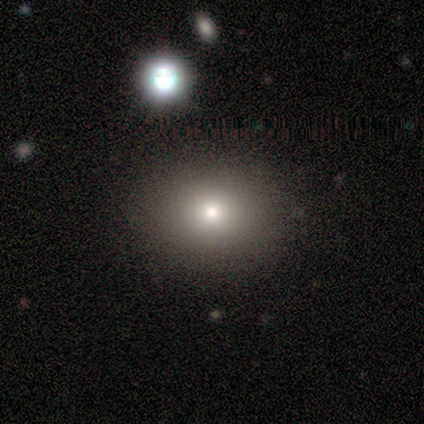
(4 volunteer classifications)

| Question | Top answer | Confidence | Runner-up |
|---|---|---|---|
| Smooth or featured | smooth | 50% | tied: star or artifact (50%) |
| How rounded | round | 50% | tied: in between (50%) |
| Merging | none | 100% | — |